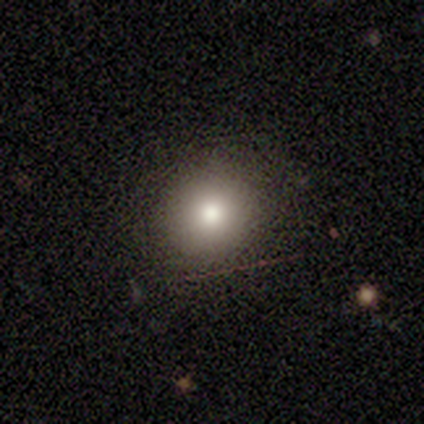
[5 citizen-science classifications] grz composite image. It shows a smooth galaxy with no disk features (100%) that is round (100%). Merging: none (100%).